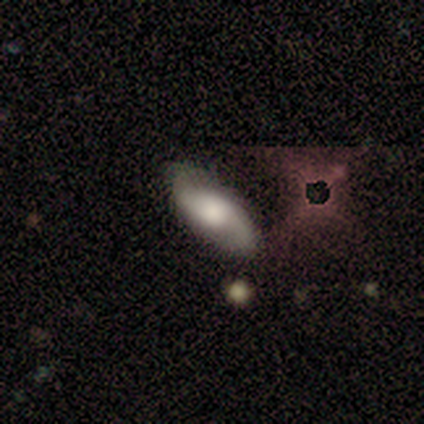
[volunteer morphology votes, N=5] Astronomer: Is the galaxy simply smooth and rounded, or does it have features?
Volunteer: featured or disk — 60% (runner-up: smooth, 40%).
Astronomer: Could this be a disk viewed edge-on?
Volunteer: no — 100%.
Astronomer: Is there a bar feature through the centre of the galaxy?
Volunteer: weak — 67%.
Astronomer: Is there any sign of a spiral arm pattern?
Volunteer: yes — 100%.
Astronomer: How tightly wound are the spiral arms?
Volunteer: medium — 67%.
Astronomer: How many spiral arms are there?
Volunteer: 2 — 100%.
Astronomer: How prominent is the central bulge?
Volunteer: large — 67%.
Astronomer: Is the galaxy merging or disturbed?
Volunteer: none — 80%.